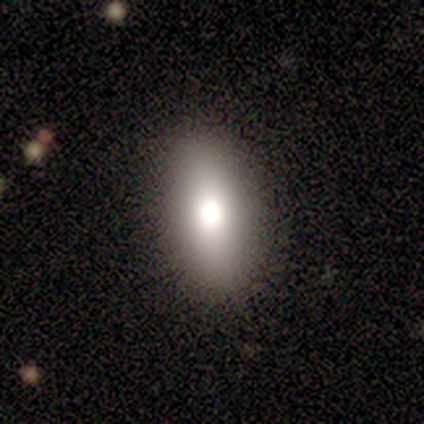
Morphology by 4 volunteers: Volunteers were most divided on "smooth or featured" (2-way tie): smooth: 50%, featured or disk: 50%, star or artifact: 0%. More confident: how rounded — in between (100%); merging — none (75%).